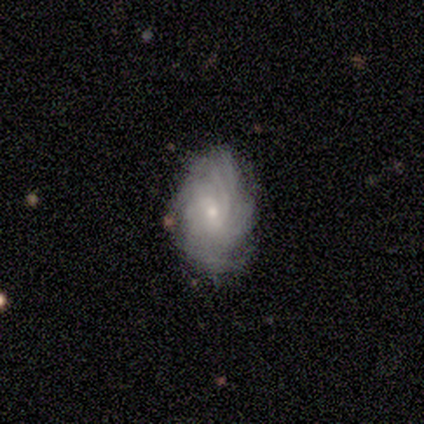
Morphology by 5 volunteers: type=featured or disk (80%); edge-on=no (100%); bar=no (100%); spiral arms=yes (100%); winding=tight (50%, tied with medium); arm count=can't tell (75%); bulge=small (75%); merging=none (80%).